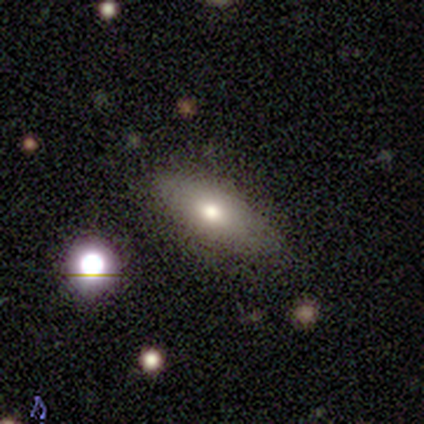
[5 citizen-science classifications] Overall: smooth (80%). How rounded: in between (75%). Merging: minor disturbance (60%; none 40%).